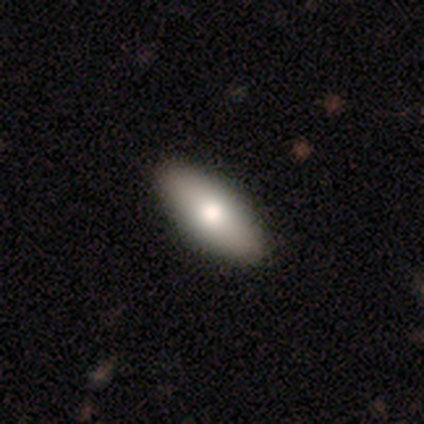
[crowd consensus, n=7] A smooth galaxy with no disk features (86%) that is in between round and cigar-shaped (83%). Merging: none (86%).